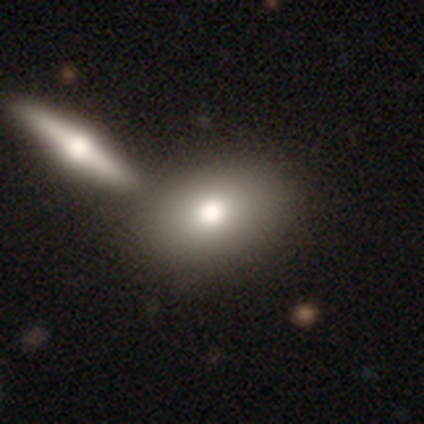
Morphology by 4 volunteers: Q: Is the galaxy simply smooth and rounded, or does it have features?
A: smooth — 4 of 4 (100%).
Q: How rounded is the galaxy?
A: in between — 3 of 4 (75%).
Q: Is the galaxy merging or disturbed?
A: none — 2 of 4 (50%, tied with merger).